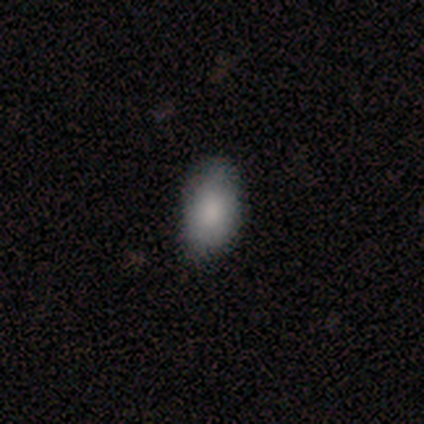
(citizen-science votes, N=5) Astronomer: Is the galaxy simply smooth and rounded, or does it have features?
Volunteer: smooth — 100%.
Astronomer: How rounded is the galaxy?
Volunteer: in between — 100%.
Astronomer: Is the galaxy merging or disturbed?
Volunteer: none — 100%.